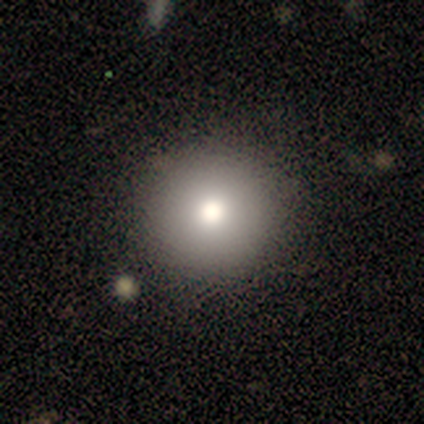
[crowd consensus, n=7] Q: Smooth or featured?
A: smooth (86%); runner-up: star or artifact (14%)
Q: How rounded?
A: round (100%)
Q: Merging?
A: none (100%)